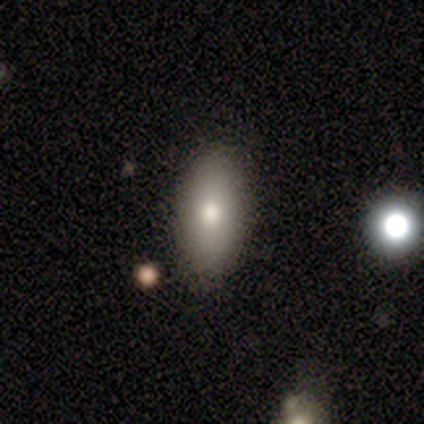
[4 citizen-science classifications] Smooth or featured?
  - smooth: 100% *
  - featured or disk: 0%
  - star or artifact: 0%
How rounded?
  - in between: 100% *
  - round: 0%
  - cigar-shaped: 0%
Merging?
  - none: 75% *
  - minor disturbance: 25%
  - major disturbance: 0%
  - merger: 0%